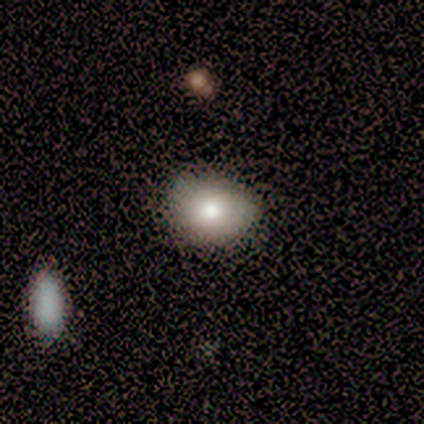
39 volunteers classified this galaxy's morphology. This appears to be a smooth galaxy with no disk features (82%) that is in between round and cigar-shaped (66%). Merging: none (64%).